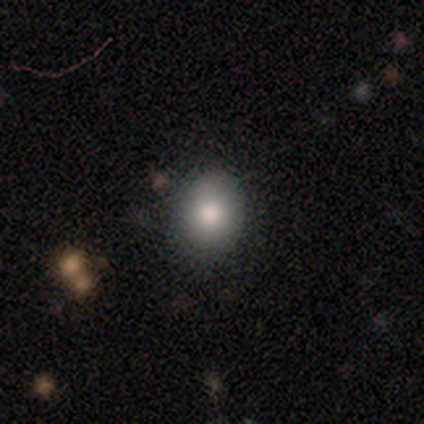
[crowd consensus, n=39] smooth_or_featured: smooth (p=0.79) [alt: star or artifact p=0.15]
how_rounded: round (p=0.68) [alt: in between p=0.32]
merging: none (p=0.94) [alt: minor disturbance p=0.06]